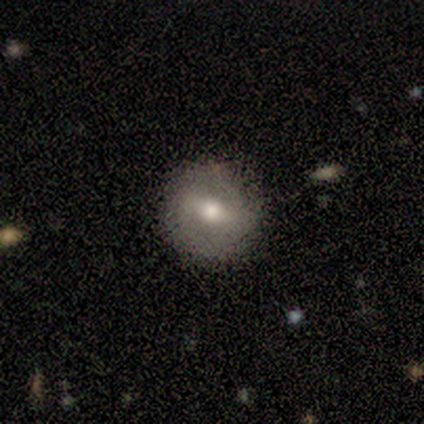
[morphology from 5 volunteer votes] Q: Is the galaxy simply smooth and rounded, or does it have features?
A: featured or disk — 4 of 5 (80%).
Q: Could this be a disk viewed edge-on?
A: no — 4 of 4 (100%).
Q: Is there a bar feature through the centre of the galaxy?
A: strong — 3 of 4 (75%).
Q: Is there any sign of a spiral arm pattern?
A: no — 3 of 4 (75%).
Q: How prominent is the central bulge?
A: moderate — 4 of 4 (100%).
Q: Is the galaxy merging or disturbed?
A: none — 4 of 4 (100%).